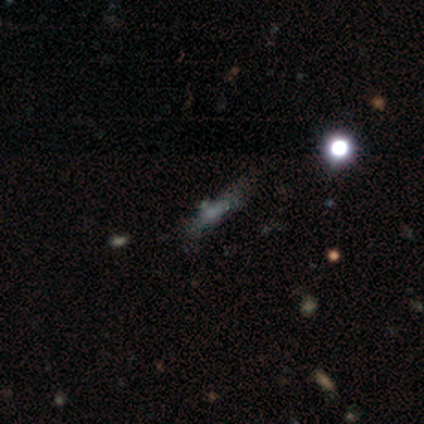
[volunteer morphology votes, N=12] Smooth or featured?
  - smooth: 42% *
  - star or artifact: 33%
  - featured or disk: 25%
How rounded?
  - in between: 40% * (tied)
  - cigar-shaped: 40% * (tied)
  - round: 20%
Merging?
  - none: 75% *
  - minor disturbance: 12%
  - merger: 12%
  - major disturbance: 0%